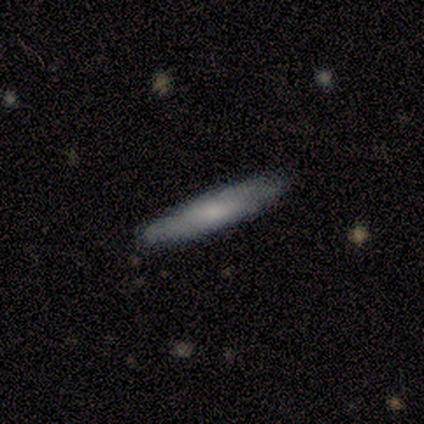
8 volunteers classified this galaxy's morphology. Q: Smooth or featured?
A: smooth (50%); runner-up: featured or disk (38%)
Q: How rounded?
A: cigar-shaped (100%)
Q: Merging?
A: none (100%)